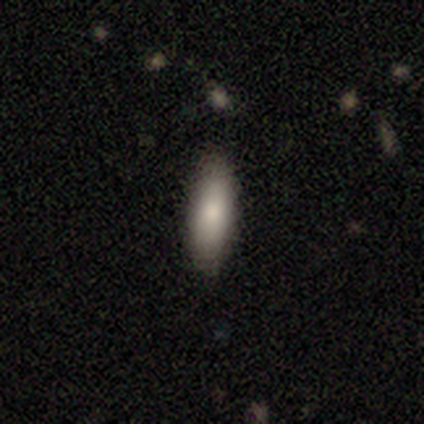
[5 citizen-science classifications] smooth-or-featured: smooth: 80% | star or artifact: 20% | featured or disk: 0%
  how-rounded: in between: 100% | round: 0% | cigar-shaped: 0%
  merging: none: 100% | minor disturbance: 0% | major disturbance: 0% | merger: 0%